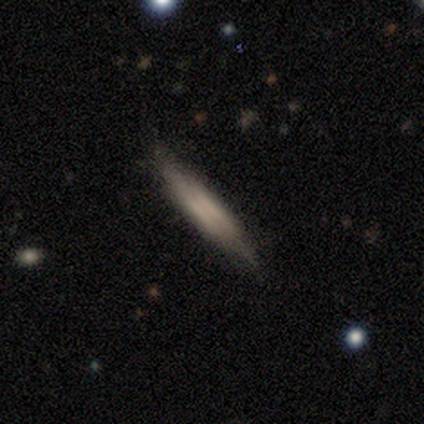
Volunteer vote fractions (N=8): Morphology: type=featured or disk (62%); edge-on=yes (80%); edge-on bulge=boxy (50%, tied with none); merging=none (62%).